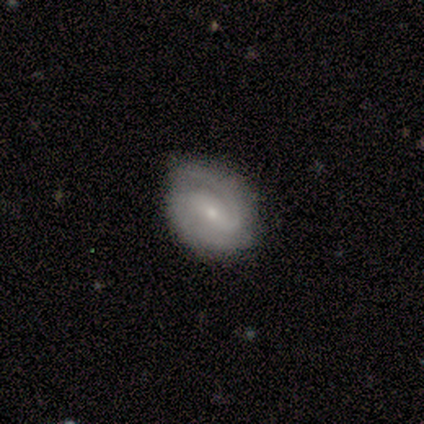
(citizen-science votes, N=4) Q: Smooth or featured?
A: featured or disk (75%); runner-up: smooth (25%)
Q: Edge-on disk?
A: no (100%)
Q: Bar?
A: strong (67%); runner-up: weak (33%)
Q: Spiral arms?
A: yes (100%)
Q: Spiral winding?
A: medium (67%); runner-up: loose (33%)
Q: Spiral arm count?
A: 2 (67%); runner-up: can't tell (33%)
Q: Bulge size?
A: small (67%); runner-up: moderate (33%)
Q: Merging?
A: none (50%); runner-up: minor disturbance (25%)